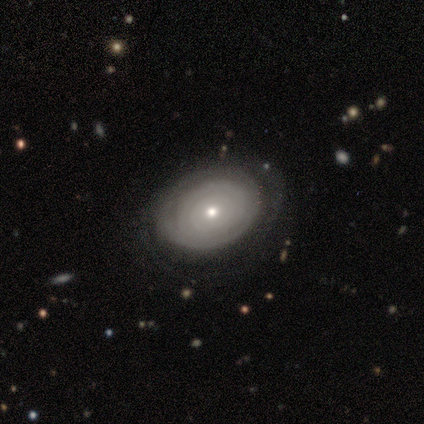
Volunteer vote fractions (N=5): Smooth or featured? smooth (40%, tied with featured or disk)
How rounded? round (50%, tied with cigar-shaped)
Merging? minor disturbance (50%)